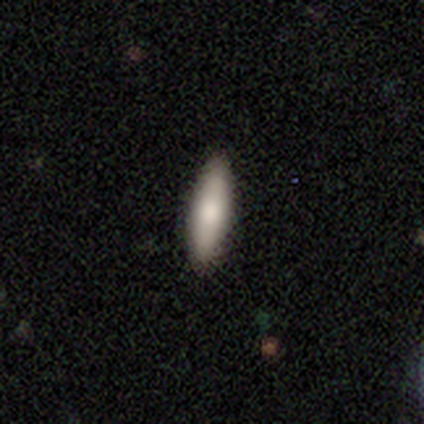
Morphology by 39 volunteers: Smooth or featured?
  - smooth: 79% *
  - featured or disk: 21%
  - star or artifact: 0%
How rounded?
  - cigar-shaped: 58% *
  - in between: 42%
  - round: 0%
Merging?
  - none: 97% *
  - minor disturbance: 3%
  - major disturbance: 0%
  - merger: 0%